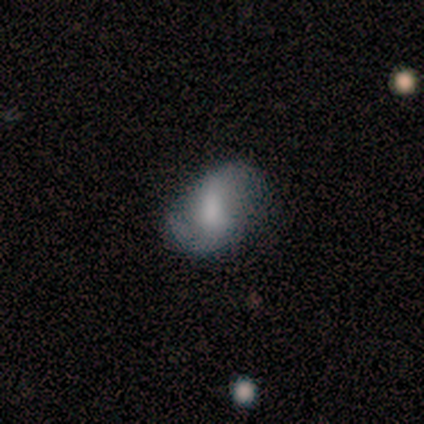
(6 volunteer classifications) Smooth or featured? 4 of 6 (67%) said smooth. How rounded? 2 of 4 (50%, tied with in between) said round. Merging? 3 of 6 (50%) said none.